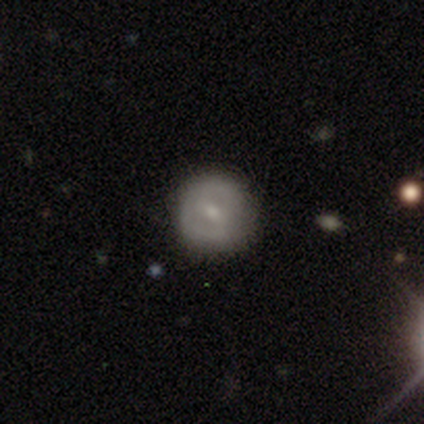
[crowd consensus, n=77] Volunteers were most divided on "spiral arms" (2-way tie): yes: 50%, no: 50%. Remaining: edge-on disk — no (95%); spiral arm count — 2 (67%); spiral winding — tight (67%); smooth or featured — featured or disk (57%); bulge size — small (57%); bar — weak (57%); merging — none (49%).